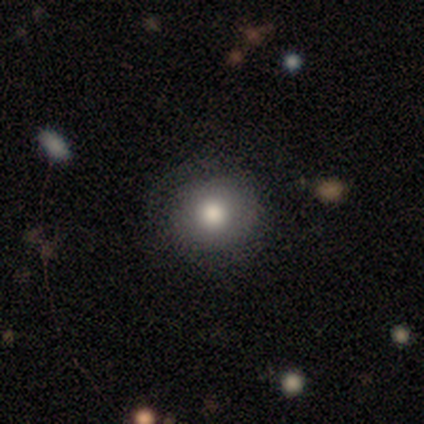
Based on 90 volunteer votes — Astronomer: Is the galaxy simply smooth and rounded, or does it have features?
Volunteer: smooth — 72%.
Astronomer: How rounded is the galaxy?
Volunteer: round — 91%.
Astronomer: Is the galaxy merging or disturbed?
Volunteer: none — 75%.